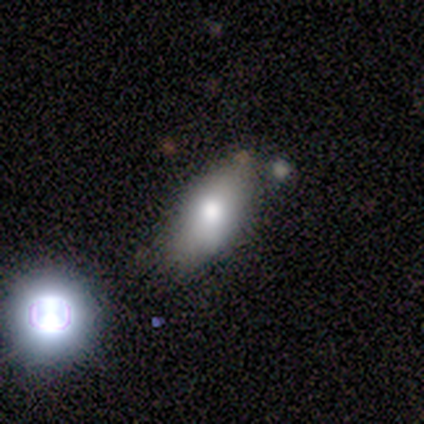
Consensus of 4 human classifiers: This is likely a smooth galaxy (75%). How rounded: clearly in between (100%). Merging: likely none (75%).